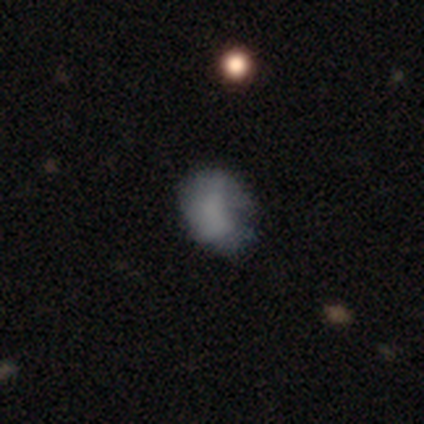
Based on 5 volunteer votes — This is clearly a smooth galaxy (80%). How rounded: possibly round (50%, tied with in between). Merging: likely none (60%).